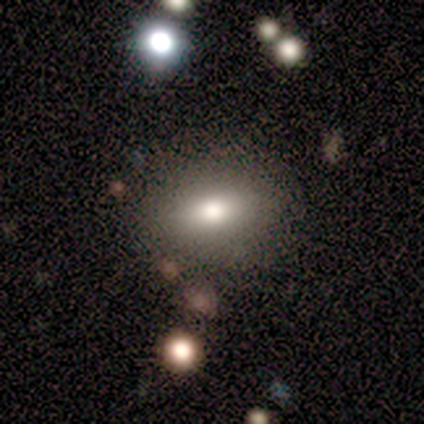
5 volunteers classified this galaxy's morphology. Smooth or featured: smooth — 80% (star or artifact — 20%)
How rounded: in between — 100%
Merging: none — 75% (minor disturbance — 25%)